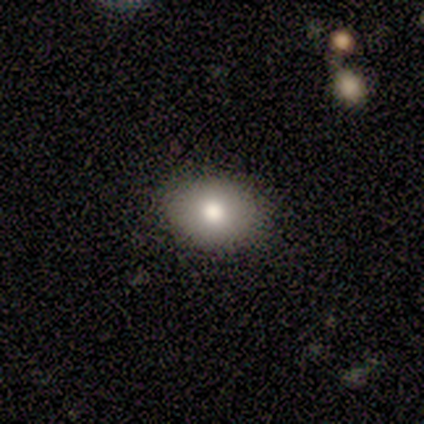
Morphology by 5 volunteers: Overall: featured or disk (60%; smooth 40%). Edge-on disk: no (67%; yes 33%). Bar: no (100%). Spiral arms: no (100%). Bulge size: large (50%, tied with moderate). Merging: none (100%).